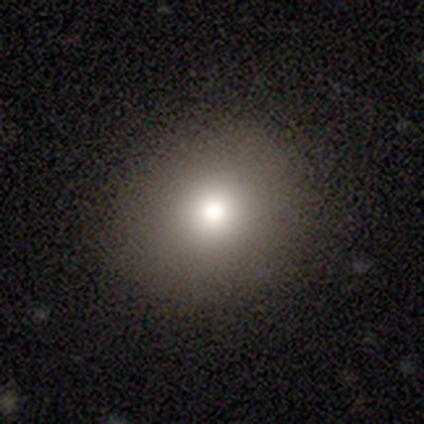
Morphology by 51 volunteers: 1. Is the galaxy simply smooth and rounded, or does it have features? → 76% smooth, 18% star or artifact, 6% featured or disk.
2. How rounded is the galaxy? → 74% round, 23% in between, 3% cigar-shaped.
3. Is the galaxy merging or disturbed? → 93% none, 2% minor disturbance, 2% major disturbance, 2% merger.